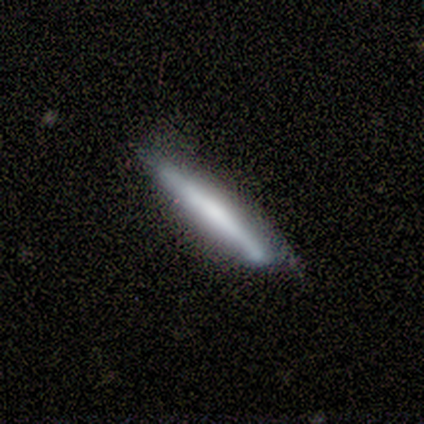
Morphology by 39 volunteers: Smooth or featured? 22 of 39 (56%) said smooth. How rounded? 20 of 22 (91%) said cigar-shaped. Merging? 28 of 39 (72%) said none.